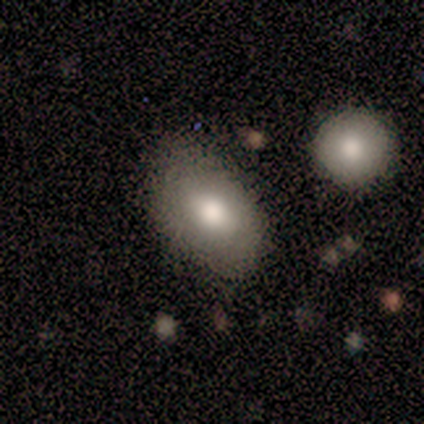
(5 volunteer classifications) Overall: smooth (100%). How rounded: in between (80%). Merging: none (80%).